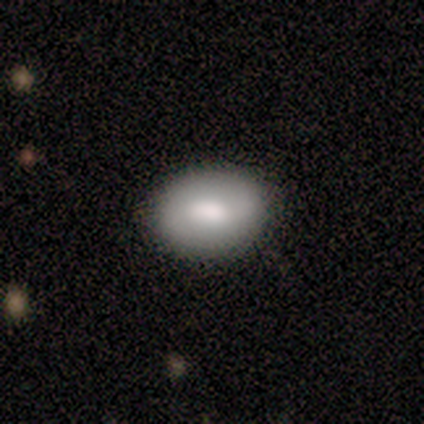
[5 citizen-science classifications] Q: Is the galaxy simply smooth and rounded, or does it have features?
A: smooth — 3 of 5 (60%).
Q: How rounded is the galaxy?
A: in between — 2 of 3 (67%).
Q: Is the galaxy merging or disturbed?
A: none — 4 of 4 (100%).